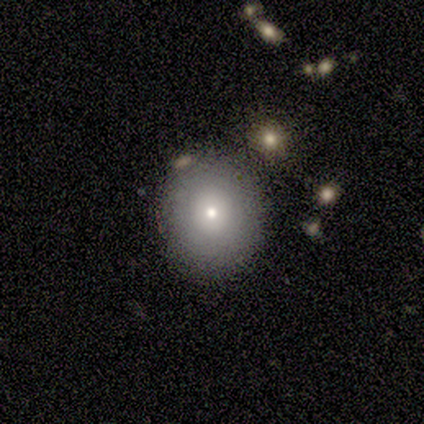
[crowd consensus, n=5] smooth_or_featured: smooth (p=0.80) [alt: featured or disk p=0.20]
how_rounded: round (p=1.00)
merging: none (p=0.80) [alt: minor disturbance p=0.20]